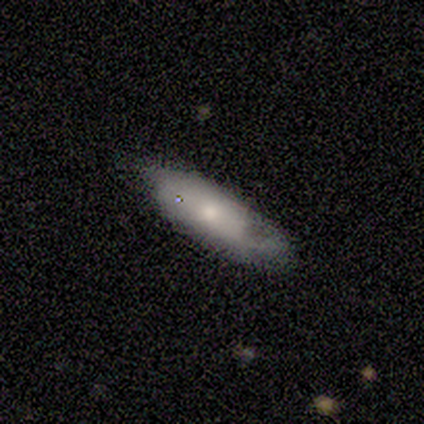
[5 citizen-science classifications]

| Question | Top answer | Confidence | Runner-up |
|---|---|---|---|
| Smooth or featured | smooth | 80% | featured or disk (20%) |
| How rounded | cigar-shaped | 75% | in between (25%) |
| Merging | none | 60% | minor disturbance (40%) |